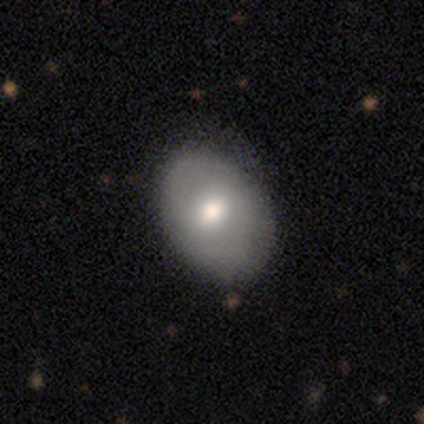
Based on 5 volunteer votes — Smooth or featured? smooth (60%)
How rounded? in between (100%)
Merging? none (75%)